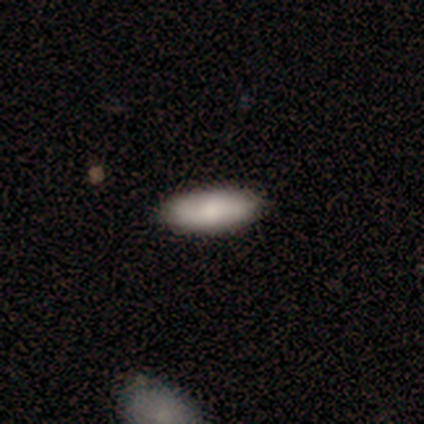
A smooth galaxy with no disk features (100%) that is in between round and cigar-shaped (100%).

Vote fractions:
- Smooth or featured? smooth: 100% / featured or disk: 0% / star or artifact: 0%
- How rounded? in between: 100% / round: 0% / cigar-shaped: 0%
- Merging? none: 100% / minor disturbance: 0% / major disturbance: 0% / merger: 0%